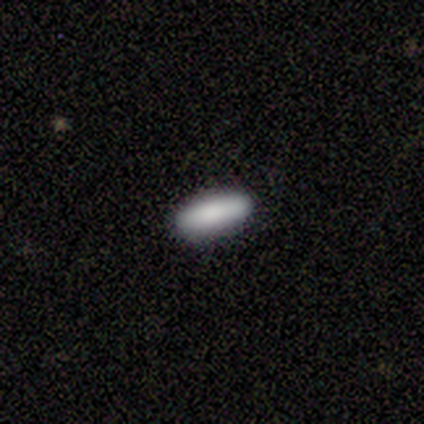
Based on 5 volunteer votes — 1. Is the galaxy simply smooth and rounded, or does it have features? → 100% smooth, 0% featured or disk, 0% star or artifact.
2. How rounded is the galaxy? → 60% in between, 40% cigar-shaped, 0% round.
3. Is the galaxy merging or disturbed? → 100% none, 0% minor disturbance, 0% major disturbance, 0% merger.